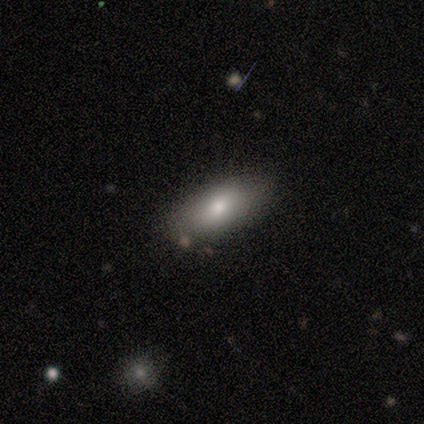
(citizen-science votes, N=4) Q: Smooth or featured?
A: smooth (75%); runner-up: featured or disk (25%)
Q: How rounded?
A: in between (100%)
Q: Merging?
A: none (100%)